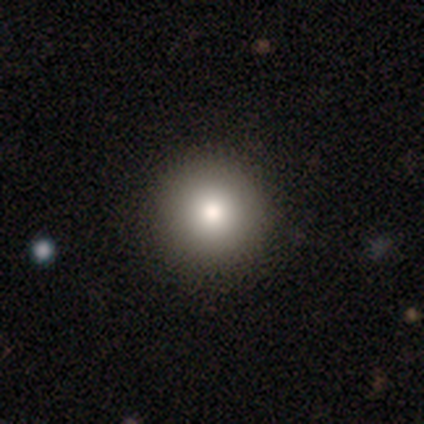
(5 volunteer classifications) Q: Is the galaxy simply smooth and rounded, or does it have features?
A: smooth — 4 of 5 (80%).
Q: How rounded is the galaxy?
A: round — 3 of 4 (75%).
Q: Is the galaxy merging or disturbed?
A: none — 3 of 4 (75%).